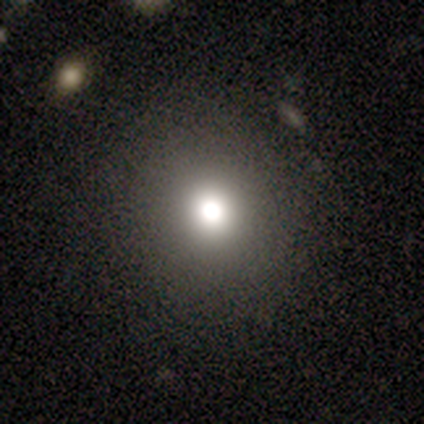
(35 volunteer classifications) This appears to be a smooth galaxy with no disk features (77%) that is round (89%). Merging: none (86%).